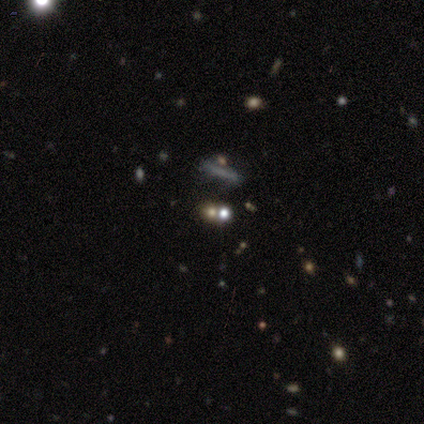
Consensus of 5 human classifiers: smooth_or_featured: smooth (p=0.60) [alt: star or artifact p=0.40]
how_rounded: round (p=0.67) [alt: cigar-shaped p=0.33]
merging: none (p=0.33) [tied with: minor disturbance p=0.33, merger p=0.33]